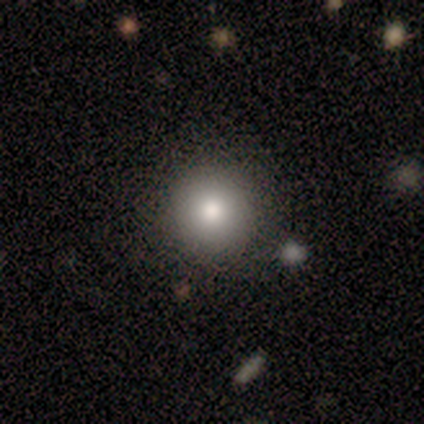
A smooth galaxy with no disk features (80%) that is round (100%). Merging: none (80%).